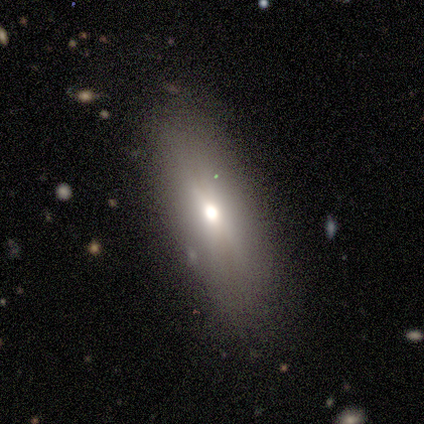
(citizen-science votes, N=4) This appears to be a smooth galaxy with no disk features (100%) that is in between round and cigar-shaped (75%). Merging: none (100%).